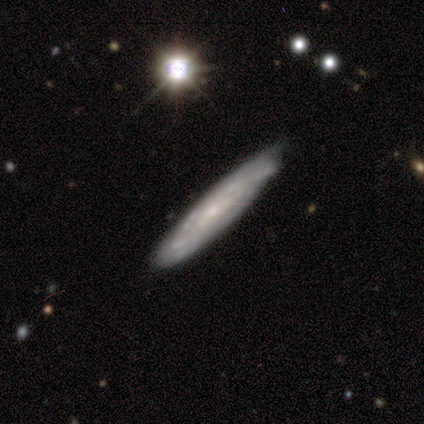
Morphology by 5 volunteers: Smooth or featured: featured or disk — 80% (smooth — 20%)
Edge-on disk: no — 75% (yes — 25%)
Bar: no — 67% (weak — 33%)
Spiral arms: yes — 100%
Spiral winding: tight — 67% (loose — 33%)
Spiral arm count: can't tell — 67% (4 — 33%)
Bulge size: small — 100%
Merging: none — 80% (minor disturbance — 20%)